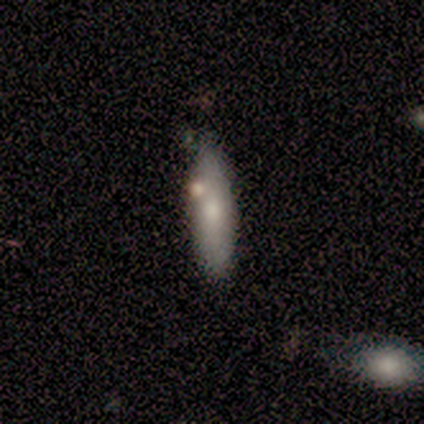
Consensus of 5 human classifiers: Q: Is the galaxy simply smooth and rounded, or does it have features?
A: smooth — 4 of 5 (80%).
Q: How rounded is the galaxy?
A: cigar-shaped — 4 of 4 (100%).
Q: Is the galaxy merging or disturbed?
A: none — 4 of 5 (80%).